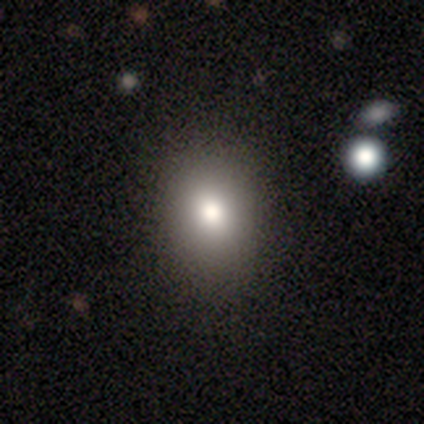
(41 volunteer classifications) smooth_or_featured: smooth (p=0.83) [alt: featured or disk p=0.10]
how_rounded: in between (p=0.56) [alt: round p=0.44]
merging: none (p=0.63) [alt: minor disturbance p=0.03]